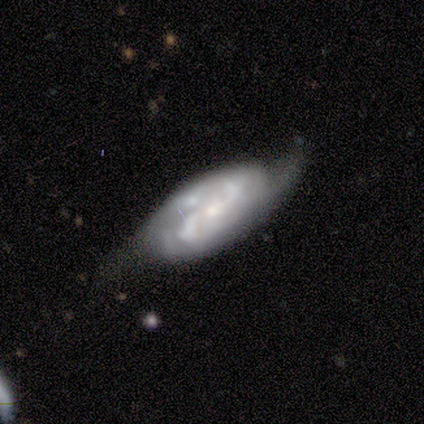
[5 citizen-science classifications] Overall: featured or disk (80%). Edge-on disk: no (100%). Bar: no (100%). Spiral arms: yes (75%). Spiral arm count: 2 (100%). Spiral winding: medium (67%; loose 33%). Bulge size: small (100%). Merging: none (60%; minor disturbance 40%).